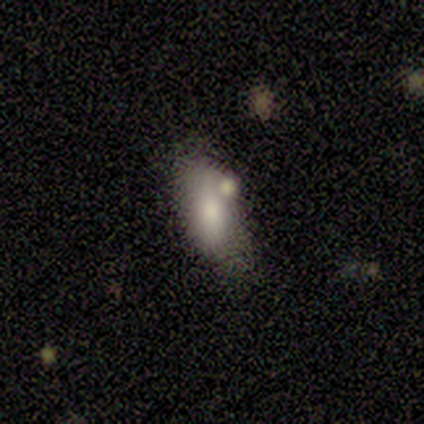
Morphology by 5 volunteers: This is clearly a smooth galaxy (100%). How rounded: clearly in between (100%). Merging: clearly none (80%).